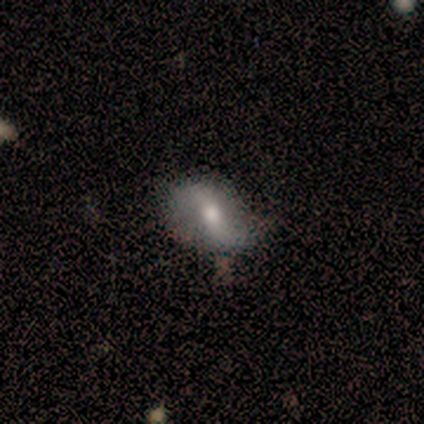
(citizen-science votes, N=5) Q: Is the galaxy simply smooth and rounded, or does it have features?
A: featured or disk — 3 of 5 (60%).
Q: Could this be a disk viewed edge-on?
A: no — 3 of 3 (100%).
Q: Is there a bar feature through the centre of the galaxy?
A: strong — 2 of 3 (67%).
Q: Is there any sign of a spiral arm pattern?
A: yes — 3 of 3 (100%).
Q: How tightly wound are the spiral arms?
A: loose — 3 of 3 (100%).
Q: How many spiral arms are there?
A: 2 — 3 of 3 (100%).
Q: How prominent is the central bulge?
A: moderate — 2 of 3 (67%).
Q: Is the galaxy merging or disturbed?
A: none — 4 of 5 (80%).